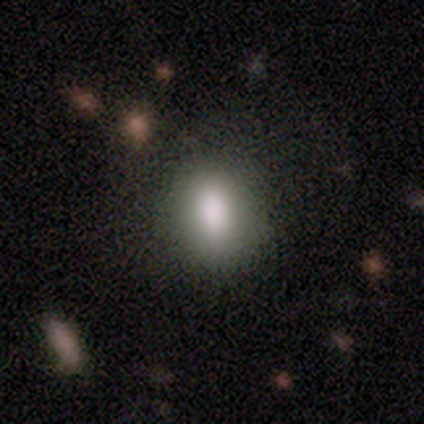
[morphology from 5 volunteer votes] smooth 100%, featured or disk 0%, star or artifact 0%. Down the decision tree: how rounded — in between (60%); merging — none (100%).